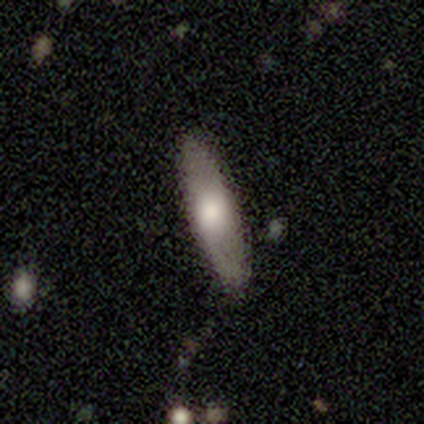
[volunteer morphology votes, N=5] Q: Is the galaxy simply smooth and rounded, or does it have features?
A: smooth — 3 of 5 (60%).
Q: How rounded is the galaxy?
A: in between — 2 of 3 (67%).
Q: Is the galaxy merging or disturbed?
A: none — 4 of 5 (80%).